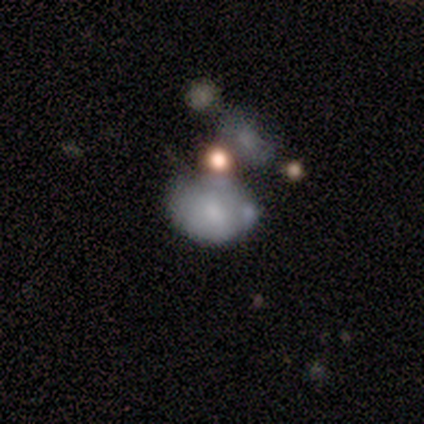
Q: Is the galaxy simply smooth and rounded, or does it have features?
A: smooth — 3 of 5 (60%).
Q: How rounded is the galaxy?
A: in between — 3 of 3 (100%).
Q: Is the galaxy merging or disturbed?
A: none — 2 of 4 (50%, tied with merger).